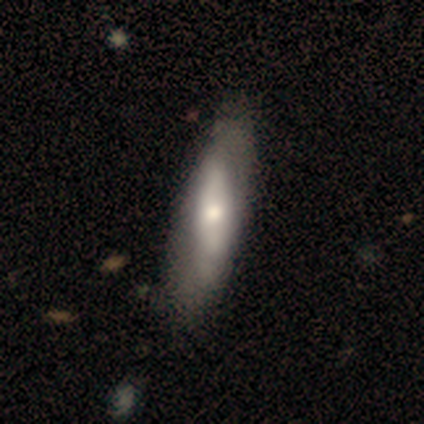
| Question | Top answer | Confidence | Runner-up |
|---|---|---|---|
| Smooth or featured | smooth | 80% | featured or disk (20%) |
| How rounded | cigar-shaped | 75% | in between (25%) |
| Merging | none | 40% | tied: major disturbance (40%) |